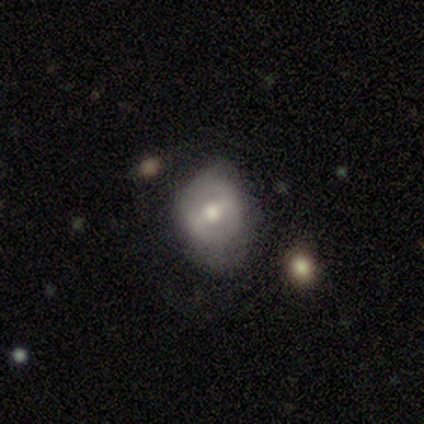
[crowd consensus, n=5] This appears to be a featured or disk galaxy (60%) with a strong bar (67%), no spiral arms (67%) and a moderate central bulge (100%). Merging: none (40%, tied with major disturbance).